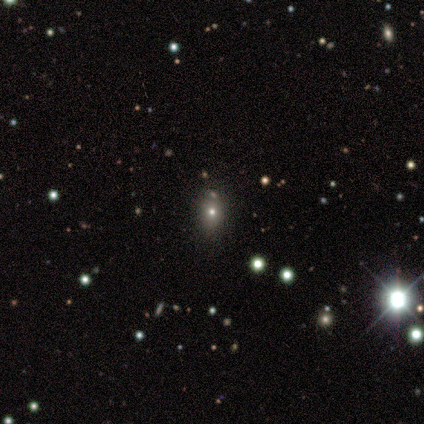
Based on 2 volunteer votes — This appears to be a smooth galaxy with no disk features (100%) that is in between round and cigar-shaped (100%). Merging: minor disturbance (50%, tied with major disturbance).